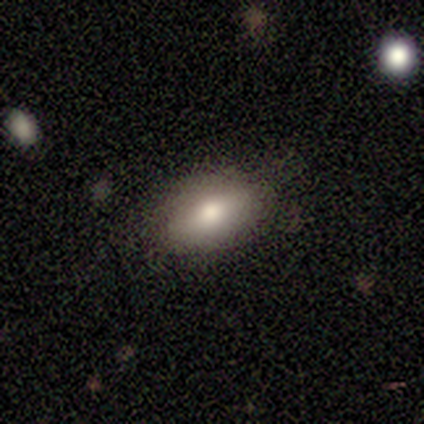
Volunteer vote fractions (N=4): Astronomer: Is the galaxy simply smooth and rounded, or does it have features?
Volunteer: smooth — 50%, tied with featured or disk at 50%.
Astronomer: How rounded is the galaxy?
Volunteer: in between — 100%.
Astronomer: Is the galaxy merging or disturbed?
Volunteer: none — 100%.